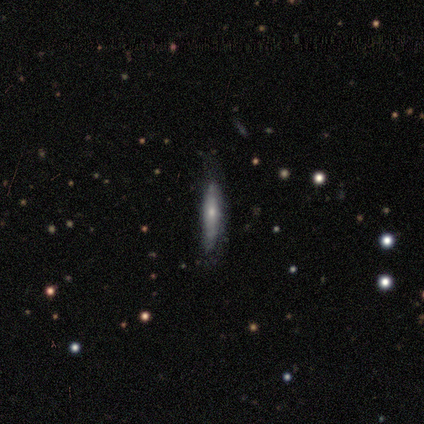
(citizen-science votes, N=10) Volunteers were most divided on "edge-on disk": yes: 71%, no: 29%. More confident: edge-on bulge — rounded (80%); merging — none (78%); smooth or featured — featured or disk (70%).